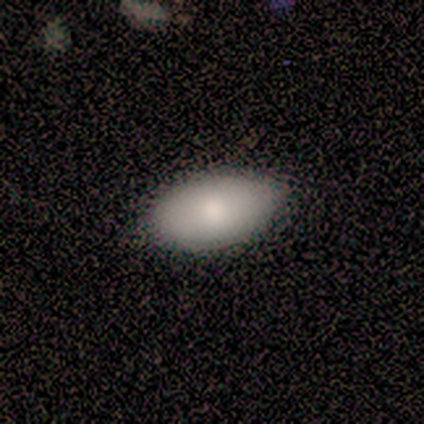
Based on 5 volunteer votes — A smooth galaxy with no disk features (100%) that is in between round and cigar-shaped (80%).

Vote fractions:
- Smooth or featured? smooth: 100% / featured or disk: 0% / star or artifact: 0%
- How rounded? in between: 80% / round: 20% / cigar-shaped: 0%
- Merging? none: 80% / minor disturbance: 20% / major disturbance: 0% / merger: 0%